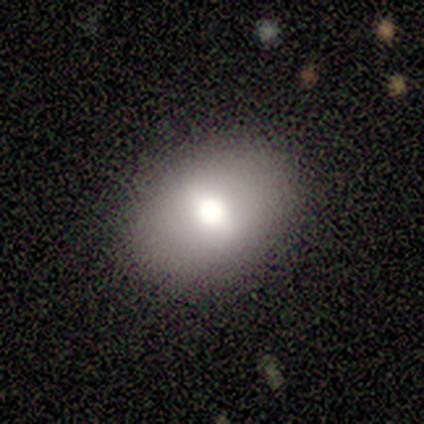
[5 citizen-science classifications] Volunteers were most divided on "how rounded": in between: 80%, round: 20%, cigar-shaped: 0%. More confident: smooth or featured — smooth (100%); merging — none (80%).